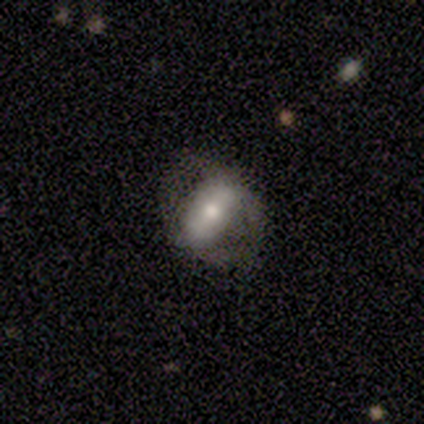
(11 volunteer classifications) Morphology: type=smooth (55%); roundness=in between (67%); merging=none (55%).